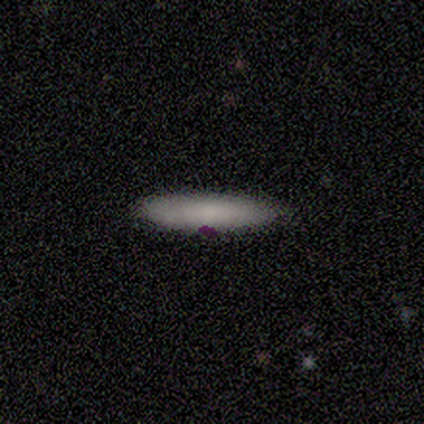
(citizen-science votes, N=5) A smooth galaxy with no disk features (80%) that is cigar-shaped (100%).

Vote fractions:
- Smooth or featured? smooth: 80% / star or artifact: 20% / featured or disk: 0%
- How rounded? cigar-shaped: 100% / round: 0% / in between: 0%
- Merging? none: 100% / minor disturbance: 0% / major disturbance: 0% / merger: 0%